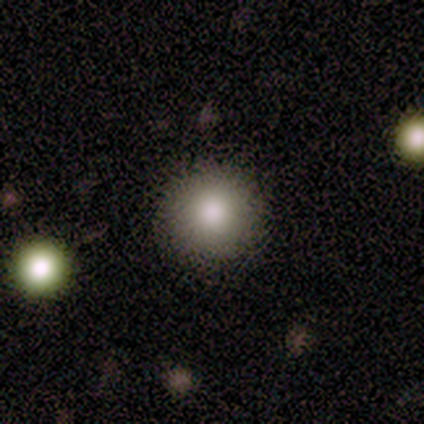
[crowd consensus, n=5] smooth-or-featured: smooth: 80% | star or artifact: 20% | featured or disk: 0%
  how-rounded: round: 75% | in between: 25% | cigar-shaped: 0%
  merging: none: 50% (tied) | minor disturbance: 50% (tied) | major disturbance: 0% | merger: 0%